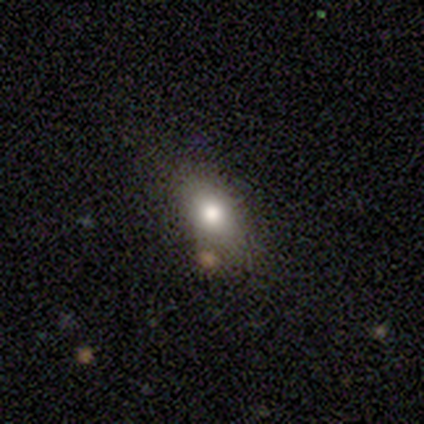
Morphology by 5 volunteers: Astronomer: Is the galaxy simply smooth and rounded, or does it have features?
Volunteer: smooth — 80%.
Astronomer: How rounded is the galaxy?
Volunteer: in between — 75%.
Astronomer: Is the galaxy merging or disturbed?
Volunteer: none — 50%, tied with minor disturbance at 50%.